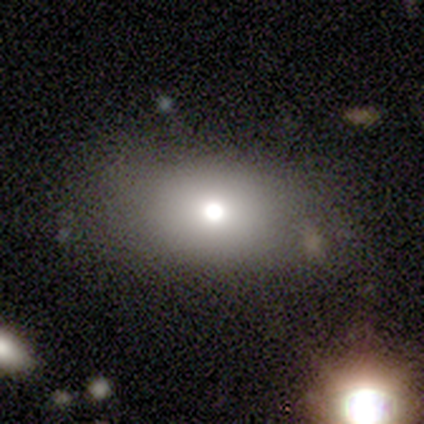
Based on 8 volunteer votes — A smooth galaxy with no disk features (75%) that is in between round and cigar-shaped (100%).

Vote fractions:
- Smooth or featured? smooth: 75% / featured or disk: 25% / star or artifact: 0%
- How rounded? in between: 100% / round: 0% / cigar-shaped: 0%
- Merging? none: 100% / minor disturbance: 0% / major disturbance: 0% / merger: 0%